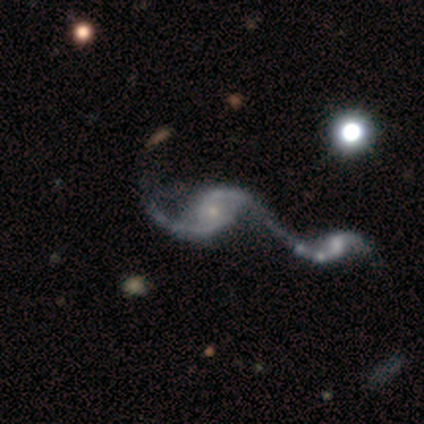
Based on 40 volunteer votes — Volunteers were most divided on "bar": no: 66%, weak: 29%, strong: 5%. More confident: edge-on disk — no (100%); smooth or featured — featured or disk (95%); spiral arms — yes (95%); spiral arm count — 2 (86%); merging — merger (82%); spiral winding — loose (69%); bulge size — small (68%).